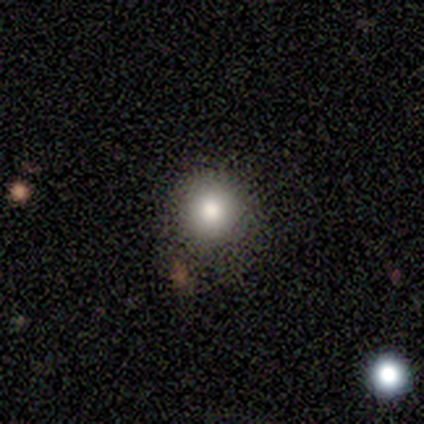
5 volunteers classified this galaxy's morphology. Volunteers were most divided on "how rounded": round: 67%, in between: 33%, cigar-shaped: 0%. More confident: merging — minor disturbance (75%); smooth or featured — smooth (60%).